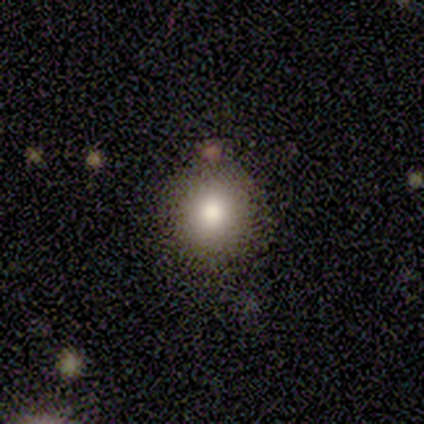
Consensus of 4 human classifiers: Smooth or featured? 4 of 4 (100%) said smooth. How rounded? 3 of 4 (75%) said round. Merging? 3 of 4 (75%) said none.